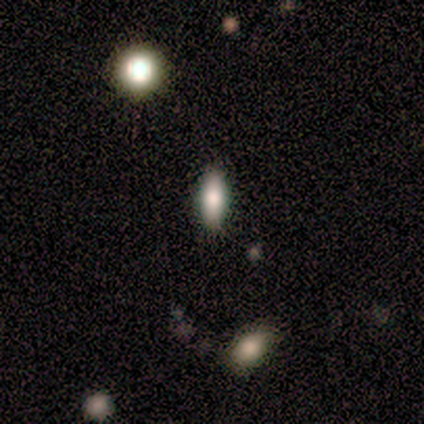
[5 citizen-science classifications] smooth 60%, featured or disk 40%, star or artifact 0%. Down the decision tree: how rounded — in between (67%); merging — none (100%).